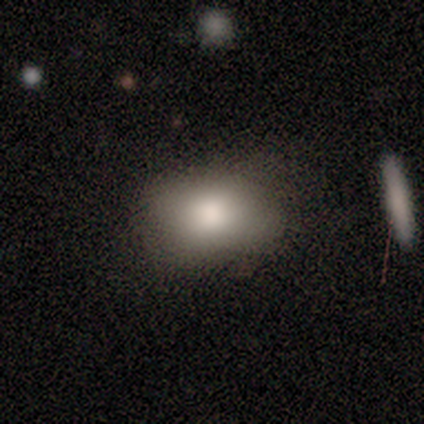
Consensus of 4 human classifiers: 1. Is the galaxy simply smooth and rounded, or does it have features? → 100% smooth, 0% featured or disk, 0% star or artifact.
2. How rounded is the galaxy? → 50% in between, 25% round, 25% cigar-shaped.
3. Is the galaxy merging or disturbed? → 50% none, 25% minor disturbance, 25% merger, 0% major disturbance.